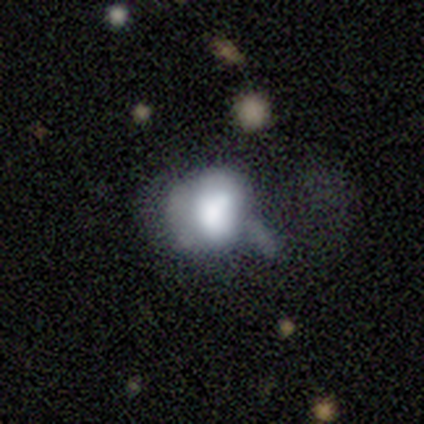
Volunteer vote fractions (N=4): Smooth or featured? star or artifact (50%)